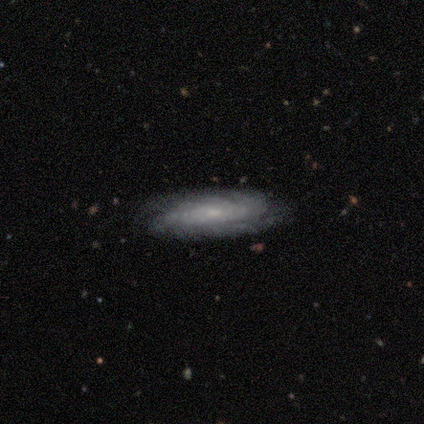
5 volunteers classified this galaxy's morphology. This appears to be a featured or disk galaxy (80%) with no bar (75%), 2 (25%, tied with 3, more than 4 and can't tell) tight (50%, tied with medium) spiral arms (100%) and a small central bulge (75%). Merging: none (100%).